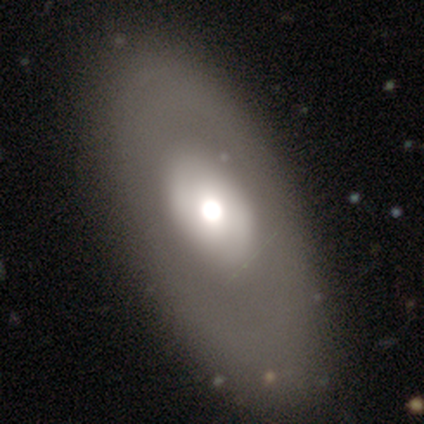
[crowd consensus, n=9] smooth-or-featured: smooth: 67% | star or artifact: 22% | featured or disk: 11%
  how-rounded: in between: 67% | round: 33% | cigar-shaped: 0%
  merging: none: 71% | minor disturbance: 29% | major disturbance: 0% | merger: 0%